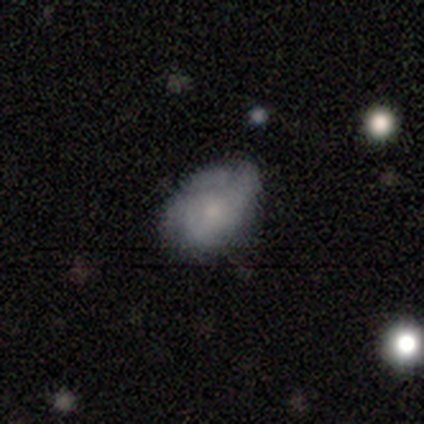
A smooth galaxy with no disk features (80%) that is in between round and cigar-shaped (75%).

Vote fractions:
- Smooth or featured? smooth: 80% / star or artifact: 20% / featured or disk: 0%
- How rounded? in between: 75% / round: 25% / cigar-shaped: 0%
- Merging? none: 75% / major disturbance: 25% / minor disturbance: 0% / merger: 0%